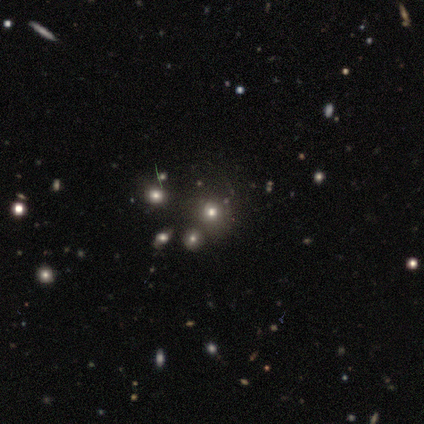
Overall: star or artifact (60%; smooth 20%).